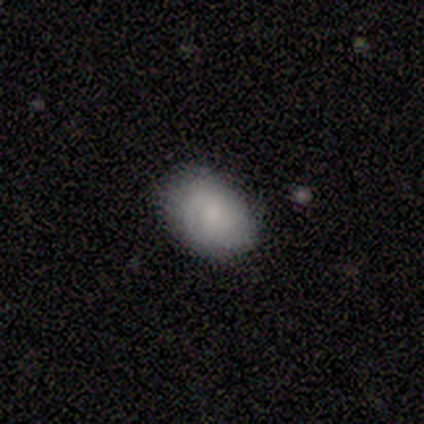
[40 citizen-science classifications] This is likely a smooth galaxy (72%). How rounded: clearly in between (97%). Merging: likely none (71%).